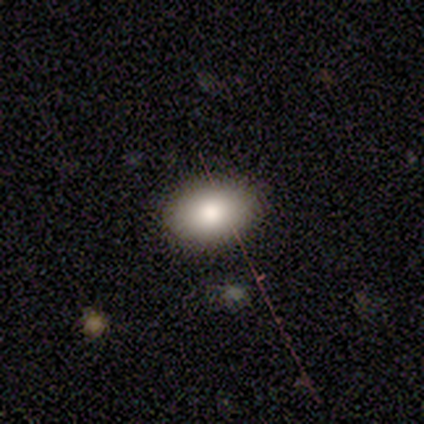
A smooth galaxy with no disk features (80%) that is in between round and cigar-shaped (75%). Merging: none (80%).